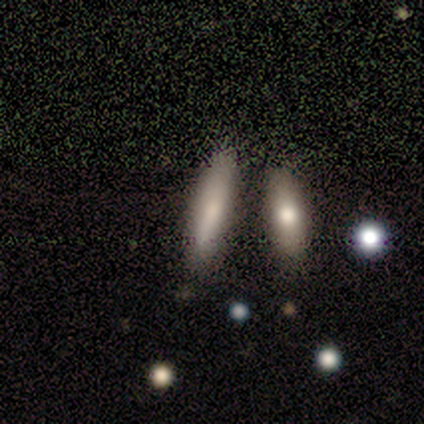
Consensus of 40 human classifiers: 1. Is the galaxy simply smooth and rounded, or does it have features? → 65% smooth, 28% featured or disk, 8% star or artifact.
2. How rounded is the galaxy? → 77% cigar-shaped, 23% in between, 0% round.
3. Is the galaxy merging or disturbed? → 57% none, 19% merger, 8% minor disturbance, 3% major disturbance.